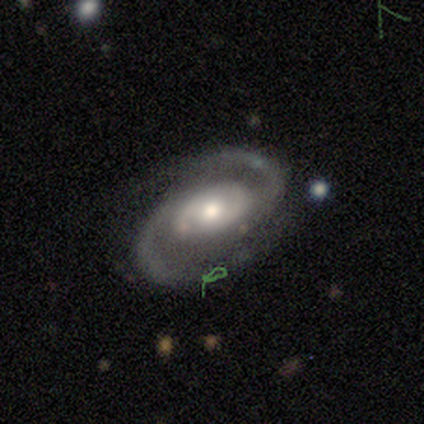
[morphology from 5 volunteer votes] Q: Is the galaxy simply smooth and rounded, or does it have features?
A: featured or disk — 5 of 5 (100%).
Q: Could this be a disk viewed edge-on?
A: no — 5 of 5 (100%).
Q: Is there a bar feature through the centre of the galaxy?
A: no — 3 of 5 (60%).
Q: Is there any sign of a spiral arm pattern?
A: yes — 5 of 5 (100%).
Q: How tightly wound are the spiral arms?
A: tight — 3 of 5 (60%).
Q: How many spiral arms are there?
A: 2 — 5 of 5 (100%).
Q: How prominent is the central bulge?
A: moderate — 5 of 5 (100%).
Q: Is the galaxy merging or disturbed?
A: none — 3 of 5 (60%).